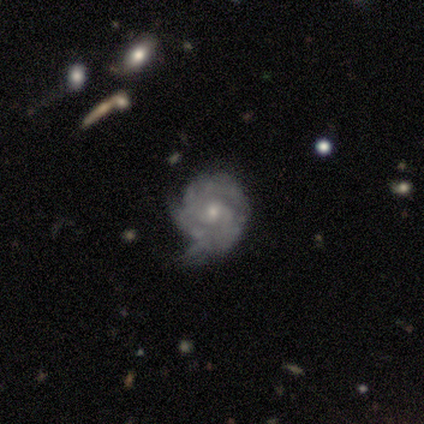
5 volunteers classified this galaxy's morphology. A featured or disk galaxy (100%) with no bar (75%), 2 (50%) tight (75%) spiral arms (100%) and a small central bulge (50%).

Vote fractions:
- Smooth or featured? featured or disk: 100% / smooth: 0% / star or artifact: 0%
- Edge-on disk? no: 80% / yes: 20%
- Bar? no: 75% / weak: 25% / strong: 0%
- Spiral arms? yes: 100% / no: 0%
- Spiral winding? tight: 75% / medium: 25% / loose: 0%
- Spiral arm count? 2: 50% / 3: 25% / can't tell: 25% / 1: 0% / 4: 0% / more than 4: 0%
- Bulge size? small: 50% / moderate: 25% / none: 25% / dominant: 0% / large: 0%
- Merging? minor disturbance: 40% / none: 20% / major disturbance: 20% / merger: 20%